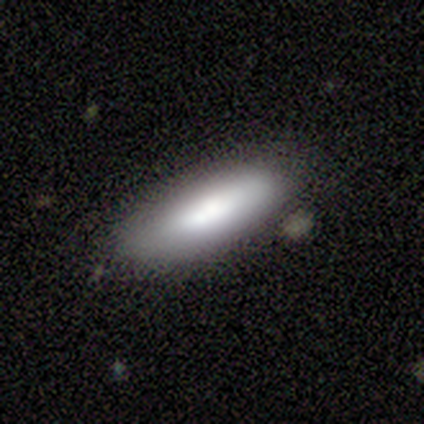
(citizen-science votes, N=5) Morphology: type=smooth (100%); roundness=cigar-shaped (60%); merging=none (100%).